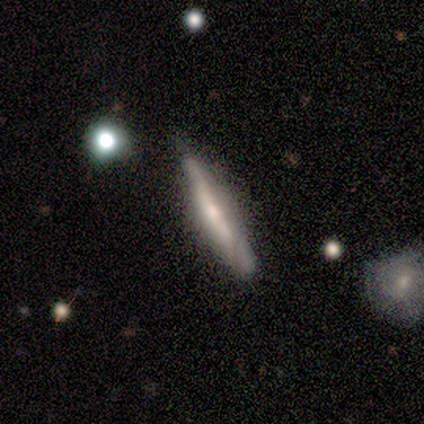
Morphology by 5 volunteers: smooth_or_featured: smooth (p=0.60) [alt: featured or disk p=0.40]
how_rounded: cigar-shaped (p=1.00)
merging: none (p=1.00)